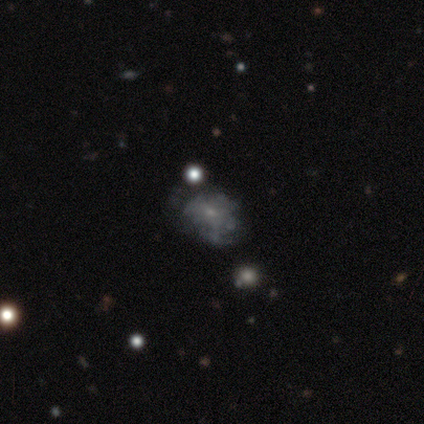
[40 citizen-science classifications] Smooth or featured?
  - featured or disk: 62% *
  - smooth: 25%
  - star or artifact: 12%
Edge-on disk?
  - no: 100% *
  - yes: 0%
Bar?
  - no: 84% *
  - weak: 16%
  - strong: 0%
Spiral arms?
  - no: 76% *
  - yes: 24%
Bulge size?
  - small: 84% *
  - none: 16%
  - dominant: 0%
  - large: 0%
  - moderate: 0%
Merging?
  - none: 66% *
  - minor disturbance: 26%
  - major disturbance: 6%
  - merger: 3%